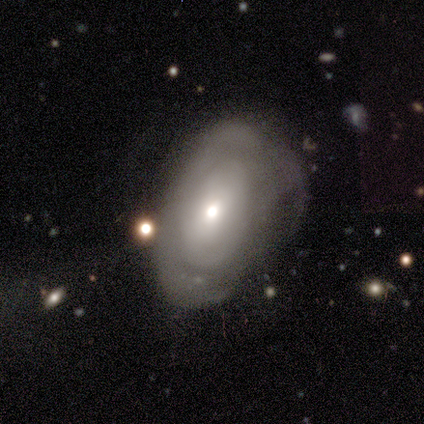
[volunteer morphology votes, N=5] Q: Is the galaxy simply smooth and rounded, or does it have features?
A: smooth — 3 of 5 (60%).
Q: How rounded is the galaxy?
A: in between — 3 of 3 (100%).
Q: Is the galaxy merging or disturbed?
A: none — 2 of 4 (50%, tied with minor disturbance).